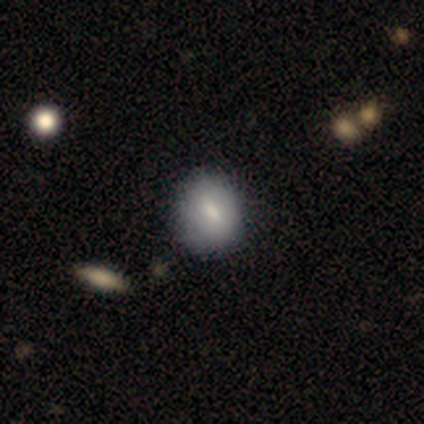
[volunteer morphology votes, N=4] Smooth or featured: smooth — 75% (featured or disk — 25%)
How rounded: round — 67% (in between — 33%)
Merging: none — 75% (major disturbance — 25%)